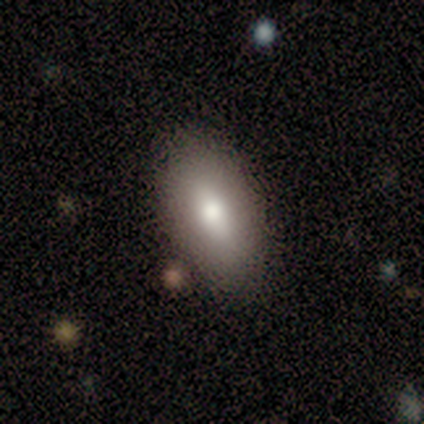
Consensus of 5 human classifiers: smooth 60%, featured or disk 20%, star or artifact 20%. Down the decision tree: how rounded — in between (100%); merging — none (100%).